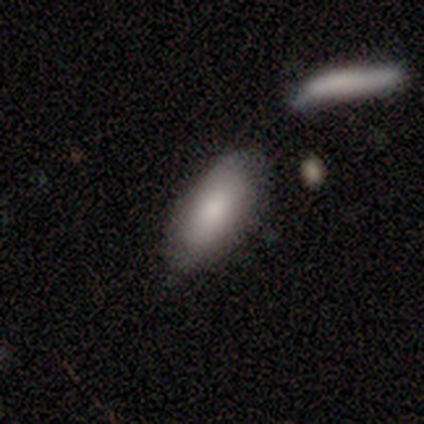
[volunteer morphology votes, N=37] Smooth or featured?
  - smooth: 76% *
  - star or artifact: 14%
  - featured or disk: 11%
How rounded?
  - in between: 93% *
  - cigar-shaped: 7%
  - round: 0%
Merging?
  - none: 50% *
  - minor disturbance: 25%
  - merger: 16%
  - major disturbance: 9%